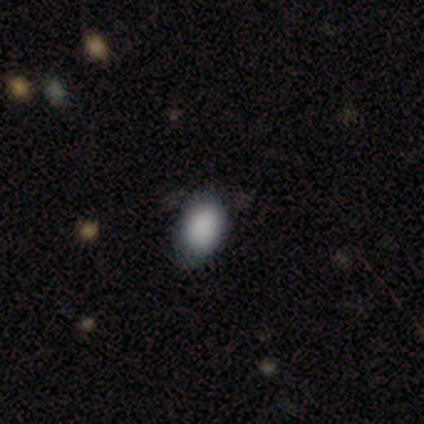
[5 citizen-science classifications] A smooth galaxy with no disk features (100%) that is in between round and cigar-shaped (100%).

Vote fractions:
- Smooth or featured? smooth: 100% / featured or disk: 0% / star or artifact: 0%
- How rounded? in between: 100% / round: 0% / cigar-shaped: 0%
- Merging? none: 60% / minor disturbance: 40% / major disturbance: 0% / merger: 0%